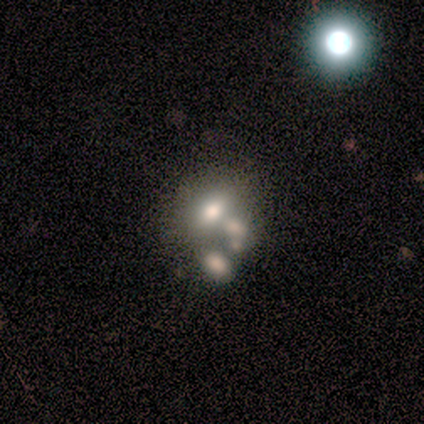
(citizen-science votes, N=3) Smooth or featured? 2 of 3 (67%) said featured or disk. Edge-on disk? 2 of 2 (100%) said no. Bar? 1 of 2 (50%, tied with no) said weak. Spiral arms? 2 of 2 (100%) said no. Bulge size? 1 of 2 (50%, tied with small) said large. Merging? 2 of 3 (67%) said merger.